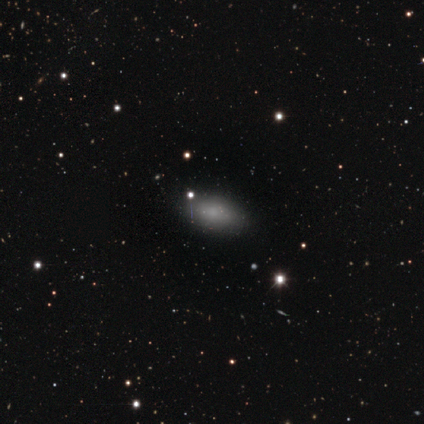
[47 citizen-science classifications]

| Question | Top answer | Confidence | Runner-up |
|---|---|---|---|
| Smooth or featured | smooth | 89% | featured or disk (11%) |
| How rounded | in between | 95% | round (5%) |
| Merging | none | 77% | minor disturbance (19%) |